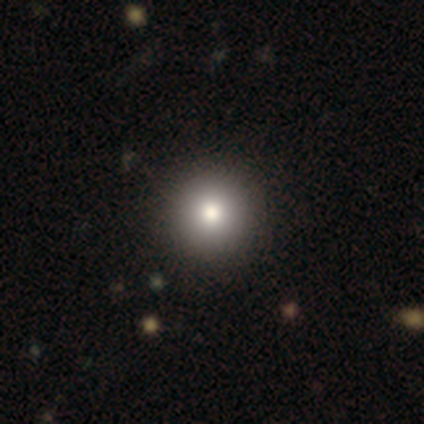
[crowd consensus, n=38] smooth-or-featured: smooth: 79% | featured or disk: 13% | star or artifact: 8%
  how-rounded: round: 100% | in between: 0% | cigar-shaped: 0%
  merging: none: 57% | merger: 3% | minor disturbance: 0% | major disturbance: 0%